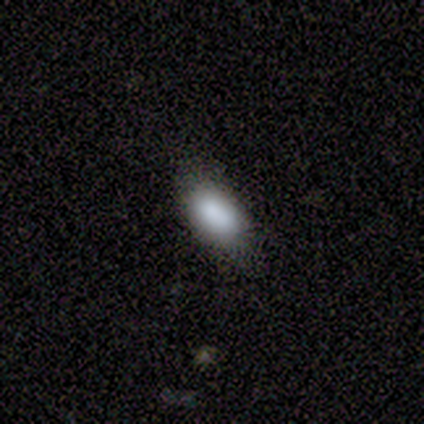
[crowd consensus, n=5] Morphology: type=smooth (100%); roundness=in between (100%); merging=none (80%).